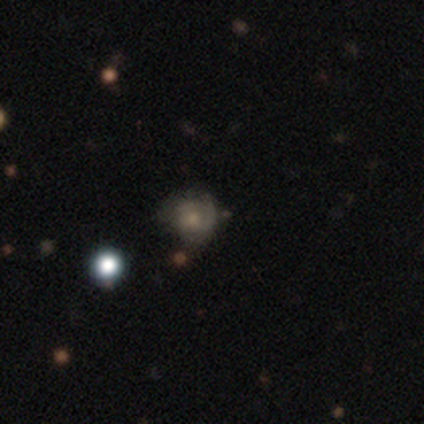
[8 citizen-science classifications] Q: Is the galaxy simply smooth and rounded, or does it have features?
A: smooth — 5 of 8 (62%).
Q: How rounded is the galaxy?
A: round — 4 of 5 (80%).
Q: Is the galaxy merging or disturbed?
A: none — 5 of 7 (71%).